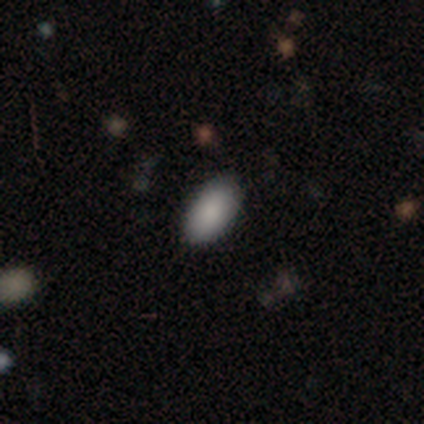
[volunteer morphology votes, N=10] Volunteers were most divided on "smooth or featured": smooth: 90%, featured or disk: 10%, star or artifact: 0%. More confident: how rounded — in between (100%); merging — none (90%).